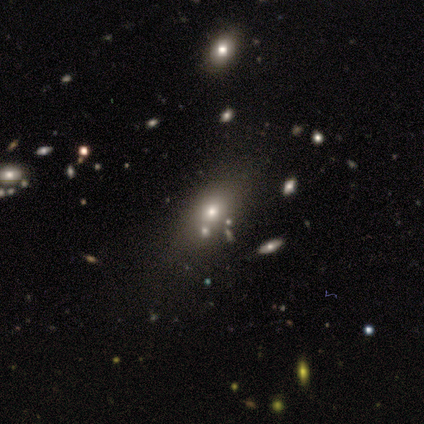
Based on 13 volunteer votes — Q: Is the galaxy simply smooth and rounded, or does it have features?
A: smooth — 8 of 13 (62%).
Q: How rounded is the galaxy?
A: in between — 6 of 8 (75%).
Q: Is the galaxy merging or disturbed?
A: none — 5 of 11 (45%).